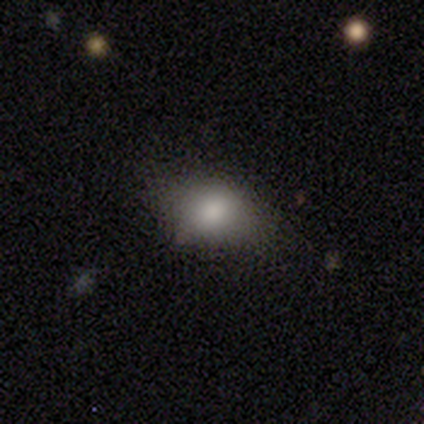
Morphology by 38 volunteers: A smooth galaxy with no disk features (82%) that is in between round and cigar-shaped (77%). Merging: none (69%).